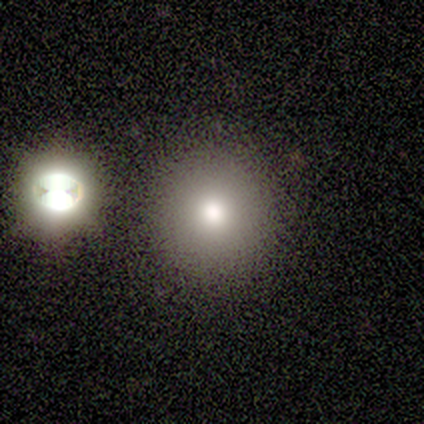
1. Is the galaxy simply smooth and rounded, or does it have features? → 60% smooth, 20% featured or disk, 20% star or artifact.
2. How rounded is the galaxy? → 100% round, 0% in between, 0% cigar-shaped.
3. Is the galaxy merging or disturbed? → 100% none, 0% minor disturbance, 0% major disturbance, 0% merger.